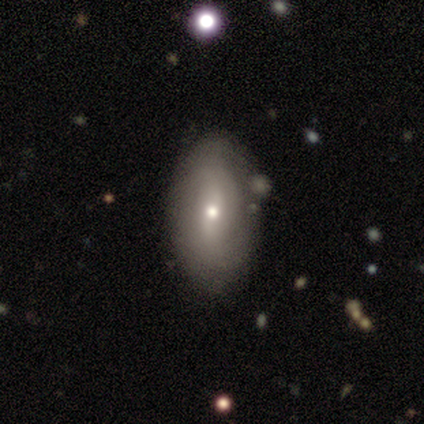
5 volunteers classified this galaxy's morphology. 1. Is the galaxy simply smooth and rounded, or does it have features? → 60% smooth, 40% featured or disk, 0% star or artifact.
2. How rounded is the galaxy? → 100% in between, 0% round, 0% cigar-shaped.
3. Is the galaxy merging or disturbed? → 60% none, 40% minor disturbance, 0% major disturbance, 0% merger.